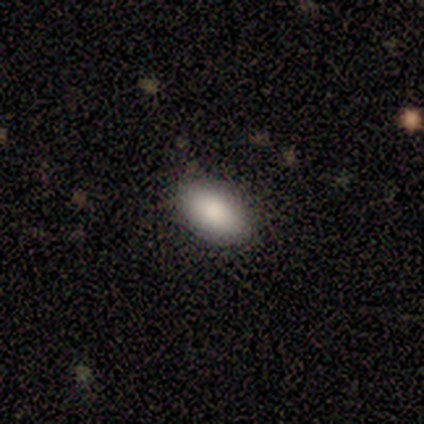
This is clearly a smooth galaxy (100%). How rounded: clearly in between (100%). Merging: clearly none (80%).